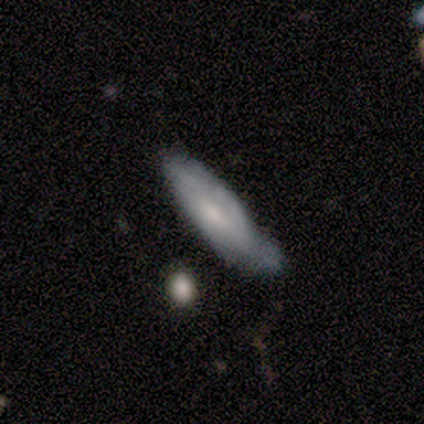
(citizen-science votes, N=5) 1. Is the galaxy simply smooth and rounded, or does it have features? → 60% smooth, 40% featured or disk, 0% star or artifact.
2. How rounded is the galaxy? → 67% cigar-shaped, 33% in between, 0% round.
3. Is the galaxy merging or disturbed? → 60% minor disturbance, 40% none, 0% major disturbance, 0% merger.